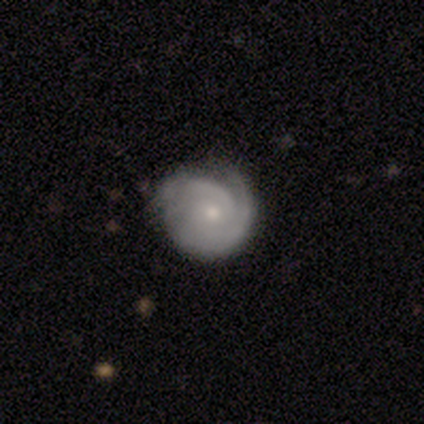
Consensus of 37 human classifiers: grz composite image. It shows a featured or disk galaxy (84%) with no bar (74%), 2 (35%, tied with can't tell) tight (77%) spiral arms (100%) and a small central bulge (65%). Merging: none (71%).